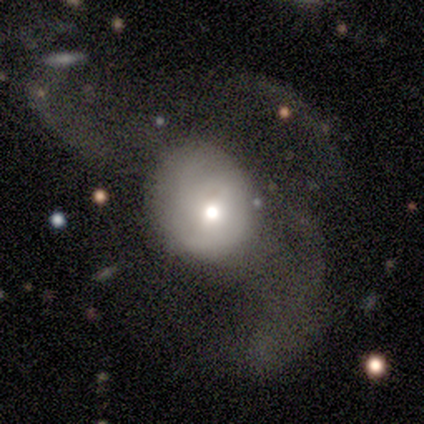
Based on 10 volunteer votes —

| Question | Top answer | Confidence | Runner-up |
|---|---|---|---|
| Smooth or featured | smooth | 60% | featured or disk (40%) |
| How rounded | round | 83% | in between (17%) |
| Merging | major disturbance | 80% | none (10%) |